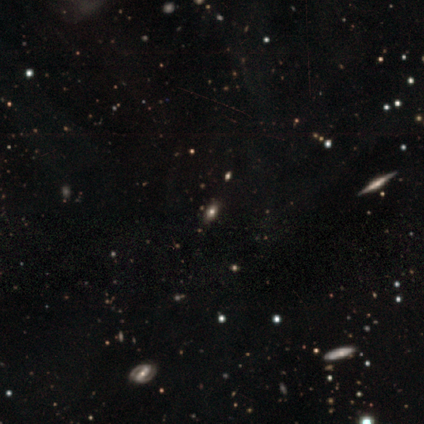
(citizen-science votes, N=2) Smooth or featured?
  - smooth: 50% * (tied)
  - featured or disk: 50% * (tied)
  - star or artifact: 0%
How rounded?
  - in between: 100% *
  - round: 0%
  - cigar-shaped: 0%
Merging?
  - none: 100% *
  - minor disturbance: 0%
  - major disturbance: 0%
  - merger: 0%